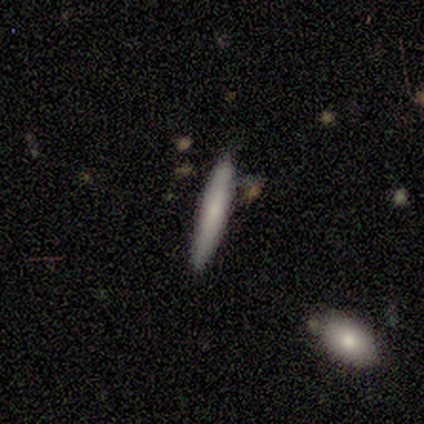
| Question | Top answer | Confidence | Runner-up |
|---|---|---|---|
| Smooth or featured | smooth | 75% | featured or disk (25%) |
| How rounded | cigar-shaped | 100% | — |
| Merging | none | 75% | minor disturbance (25%) |